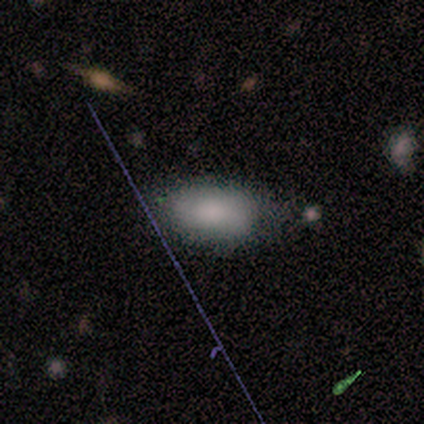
smooth 100%, featured or disk 0%, star or artifact 0%. Down the decision tree: how rounded — in between (100%); merging — none (75%).